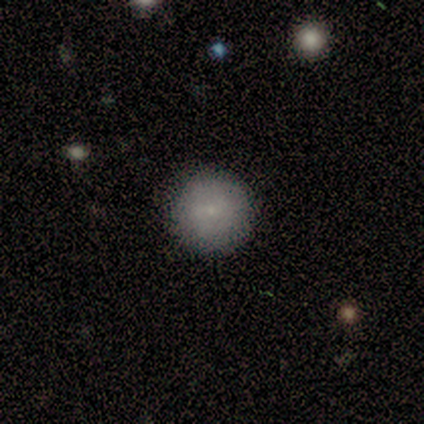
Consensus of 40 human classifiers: smooth_or_featured: smooth (p=0.78) [alt: featured or disk p=0.17]
how_rounded: round (p=1.00)
merging: none (p=0.89) [alt: minor disturbance p=0.08]